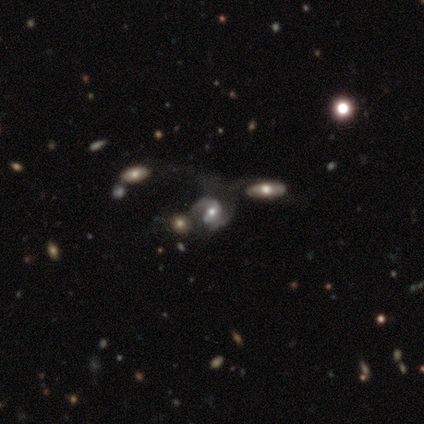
Volunteers were most divided on "spiral winding": medium: 47%, loose: 44%, tight: 9%. Remaining: edge-on disk — no (100%); spiral arms — yes (97%); spiral arm count — 2 (88%); smooth or featured — featured or disk (85%); bulge size — moderate (79%); bar — weak (39%); merging — merger (39%).